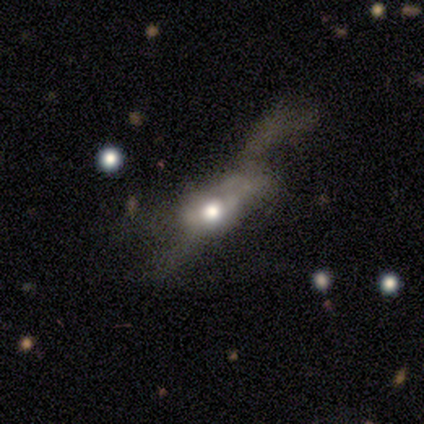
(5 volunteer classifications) Smooth or featured?
  - smooth: 60% *
  - featured or disk: 40%
  - star or artifact: 0%
How rounded?
  - in between: 67% *
  - cigar-shaped: 33%
  - round: 0%
Merging?
  - major disturbance: 80% *
  - minor disturbance: 20%
  - none: 0%
  - merger: 0%